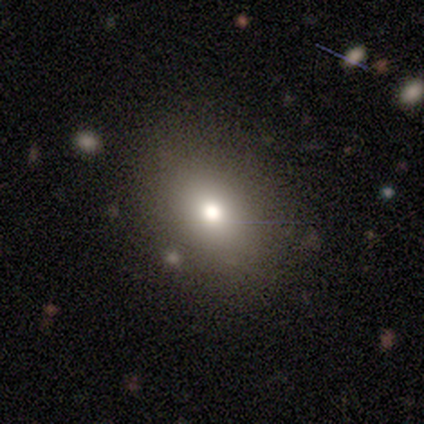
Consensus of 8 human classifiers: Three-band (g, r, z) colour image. It shows a smooth galaxy with no disk features (50%) that is round (50%, tied with in between). Merging: none (83%).